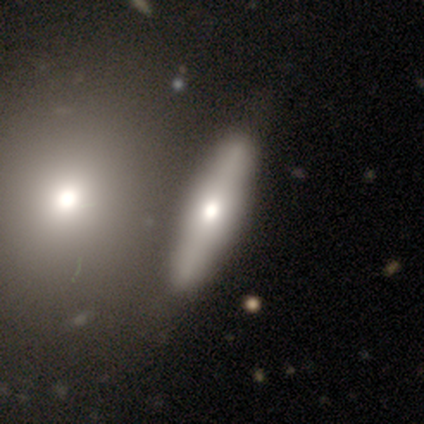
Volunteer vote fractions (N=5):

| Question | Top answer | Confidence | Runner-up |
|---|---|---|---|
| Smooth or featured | featured or disk | 60% | smooth (40%) |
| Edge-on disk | yes | 67% | no (33%) |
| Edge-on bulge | rounded | 100% | — |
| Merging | none | 40% | tied: major disturbance (40%) |